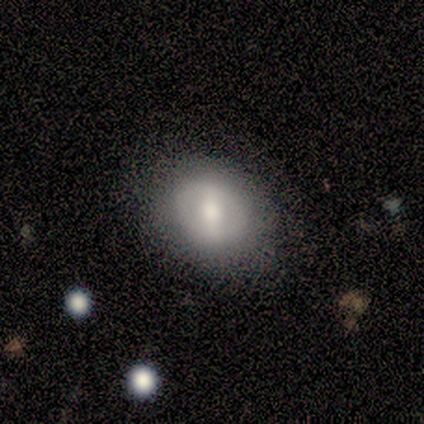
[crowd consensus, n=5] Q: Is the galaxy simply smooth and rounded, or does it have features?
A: featured or disk — 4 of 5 (80%).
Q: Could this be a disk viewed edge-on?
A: no — 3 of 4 (75%).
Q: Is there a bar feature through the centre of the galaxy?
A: weak — 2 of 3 (67%).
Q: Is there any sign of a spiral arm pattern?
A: no — 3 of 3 (100%).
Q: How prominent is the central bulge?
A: moderate — 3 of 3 (100%).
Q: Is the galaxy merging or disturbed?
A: none — 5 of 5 (100%).